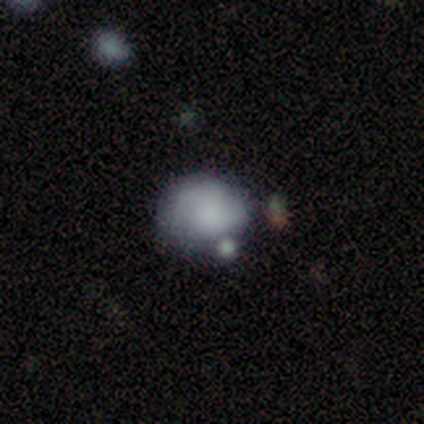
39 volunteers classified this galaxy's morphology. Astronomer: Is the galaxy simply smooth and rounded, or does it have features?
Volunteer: smooth — 62%.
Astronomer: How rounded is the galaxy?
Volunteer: round — 54% (runner-up: in between, 46%).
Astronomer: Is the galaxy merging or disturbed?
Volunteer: none — 39% (runner-up: minor disturbance, 33%).